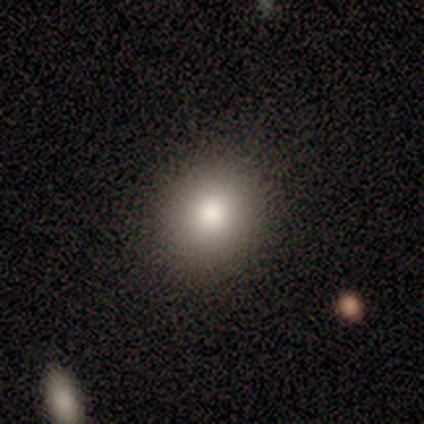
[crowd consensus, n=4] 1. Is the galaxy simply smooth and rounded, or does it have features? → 75% smooth, 25% star or artifact, 0% featured or disk.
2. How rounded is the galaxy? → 67% round, 33% in between, 0% cigar-shaped.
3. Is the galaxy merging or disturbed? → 100% none, 0% minor disturbance, 0% major disturbance, 0% merger.